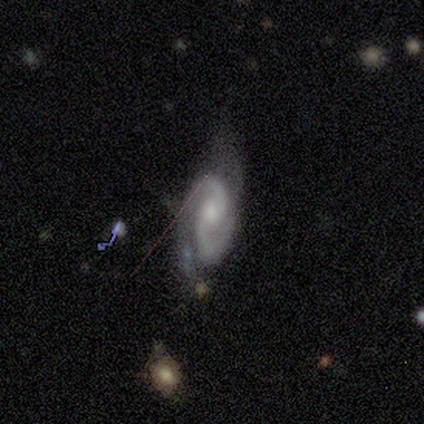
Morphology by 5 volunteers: smooth_or_featured: featured or disk (p=1.00)
disk_edge_on: no (p=1.00)
bar: no (p=0.80) [alt: weak p=0.20]
has_spiral_arms: yes (p=1.00)
spiral_winding: tight (p=0.60) [alt: medium p=0.40]
spiral_arm_count: 2 (p=1.00)
bulge_size: small (p=1.00)
merging: minor disturbance (p=0.40) [tied with: major disturbance p=0.40]